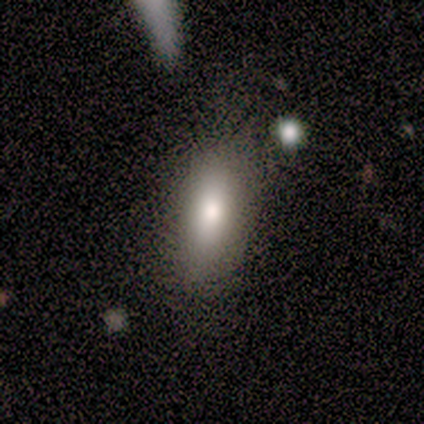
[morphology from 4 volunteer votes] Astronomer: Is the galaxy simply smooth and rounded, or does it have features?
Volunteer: smooth — 75%.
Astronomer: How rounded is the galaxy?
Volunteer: in between — 67%.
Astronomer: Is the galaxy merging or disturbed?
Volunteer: none — 100%.